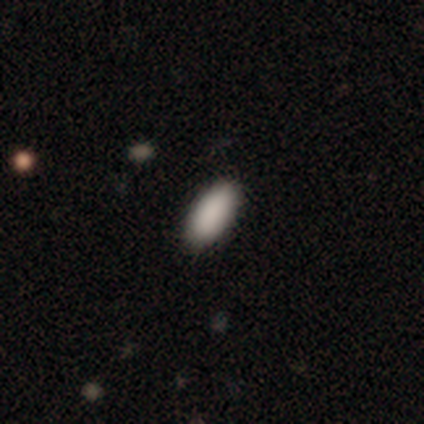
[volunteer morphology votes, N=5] Consensus on every question: smooth or featured — smooth (100%); how rounded — in between (100%); merging — none (100%).